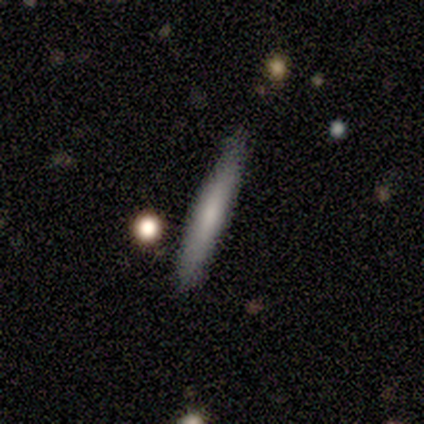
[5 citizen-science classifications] smooth-or-featured: smooth: 40% (tied) | featured or disk: 40% (tied) | star or artifact: 20%
  how-rounded: cigar-shaped: 100% | round: 0% | in between: 0%
  merging: none: 100% | minor disturbance: 0% | major disturbance: 0% | merger: 0%